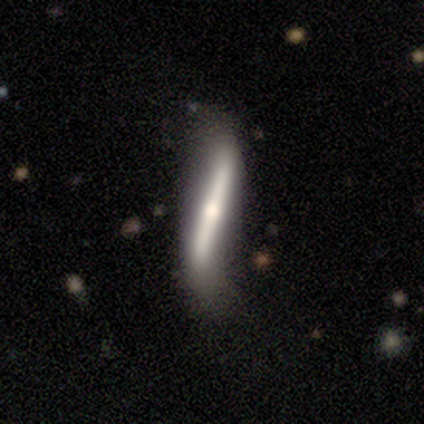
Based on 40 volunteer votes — Q: Smooth or featured?
A: featured or disk (72%); runner-up: smooth (28%)
Q: Edge-on disk?
A: yes (79%); runner-up: no (21%)
Q: Edge-on bulge?
A: rounded (65%); runner-up: none (30%)
Q: Merging?
A: none (55%); runner-up: minor disturbance (20%)